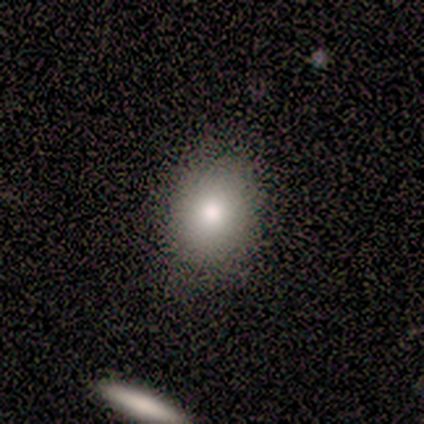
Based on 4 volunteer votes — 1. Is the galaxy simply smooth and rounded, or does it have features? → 75% smooth, 25% star or artifact, 0% featured or disk.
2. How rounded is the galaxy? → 67% in between, 33% round, 0% cigar-shaped.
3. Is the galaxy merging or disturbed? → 100% none, 0% minor disturbance, 0% major disturbance, 0% merger.